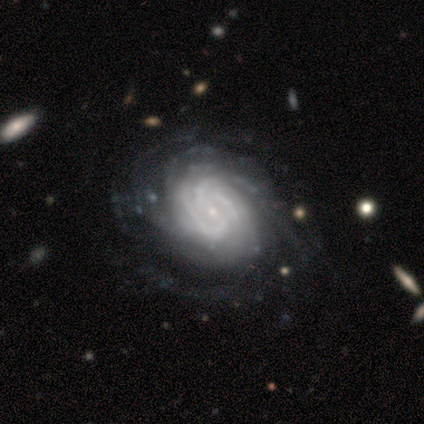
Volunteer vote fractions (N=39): This appears to be a featured or disk galaxy (97%) with no bar (55%), tight (92%) spiral arms (97%) and a small central bulge (82%). Merging: none (67%).